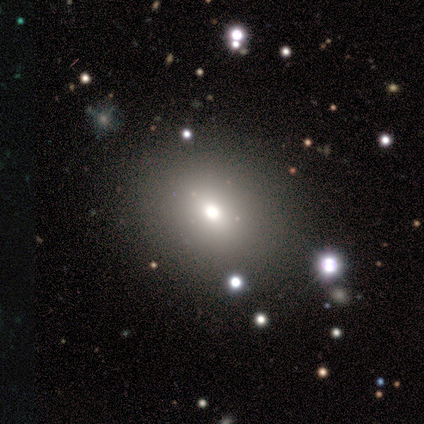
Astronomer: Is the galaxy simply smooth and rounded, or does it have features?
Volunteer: smooth — 100%.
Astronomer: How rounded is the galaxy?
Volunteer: in between — 60% (runner-up: round, 40%).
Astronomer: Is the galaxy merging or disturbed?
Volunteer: none — 100%.